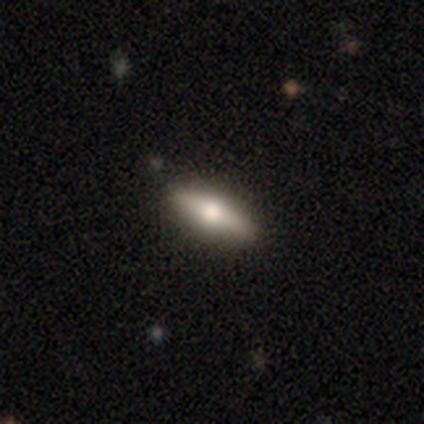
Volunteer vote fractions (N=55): smooth_or_featured: smooth (p=0.60) [alt: featured or disk p=0.31]
how_rounded: cigar-shaped (p=0.58) [alt: in between p=0.42]
merging: none (p=0.90) [alt: minor disturbance p=0.08]